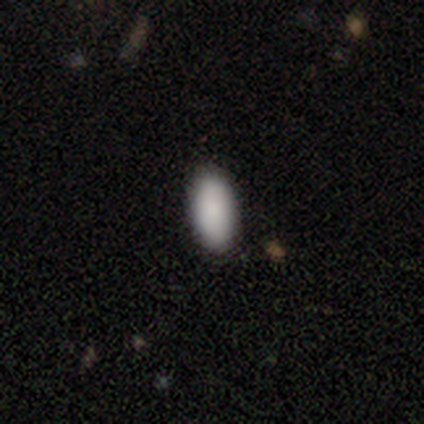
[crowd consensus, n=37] A smooth galaxy with no disk features (92%) that is in between round and cigar-shaped (94%).

Vote fractions:
- Smooth or featured? smooth: 92% / star or artifact: 5% / featured or disk: 3%
- How rounded? in between: 94% / round: 3% / cigar-shaped: 3%
- Merging? none: 86% / minor disturbance: 14% / major disturbance: 0% / merger: 0%